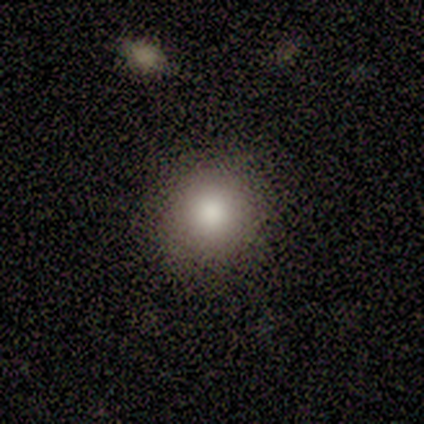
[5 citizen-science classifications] Morphology: type=smooth (80%); roundness=round (100%); merging=none (100%).